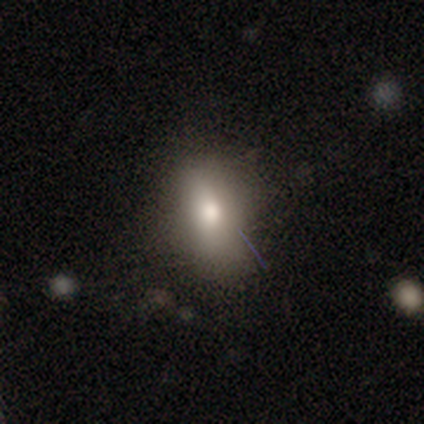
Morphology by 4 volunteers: A smooth galaxy with no disk features (75%) that is in between round and cigar-shaped (100%). Merging: none (50%, tied with minor disturbance).